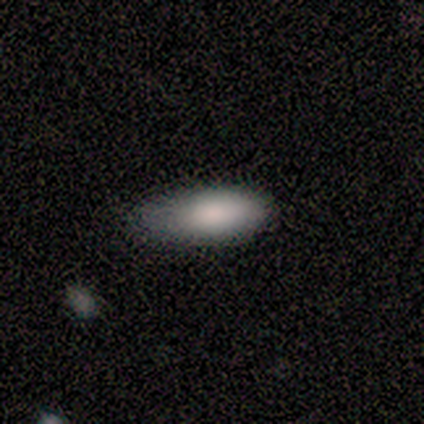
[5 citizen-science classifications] smooth-or-featured: smooth: 100% | featured or disk: 0% | star or artifact: 0%
  how-rounded: in between: 80% | cigar-shaped: 20% | round: 0%
  merging: minor disturbance: 60% | none: 20% | major disturbance: 20% | merger: 0%